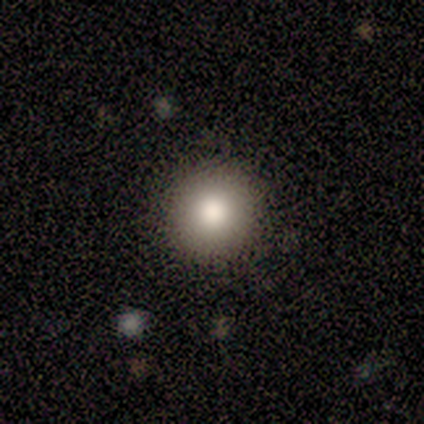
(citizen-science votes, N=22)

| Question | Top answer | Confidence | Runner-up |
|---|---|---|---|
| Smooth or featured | smooth | 77% | featured or disk (18%) |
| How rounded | round | 100% | — |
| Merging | none | 100% | — |